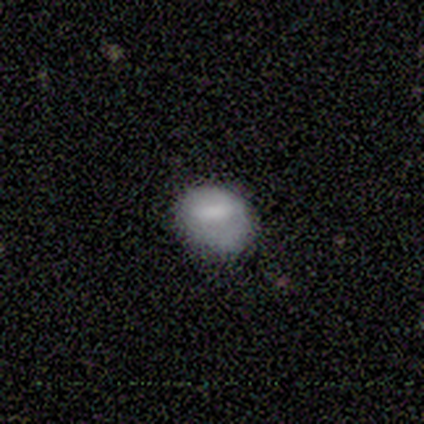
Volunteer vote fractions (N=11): Smooth or featured: smooth — 64% (featured or disk — 27%)
How rounded: round — 43% (tied with in between — 43%)
Merging: none — 50% (minor disturbance — 40%)